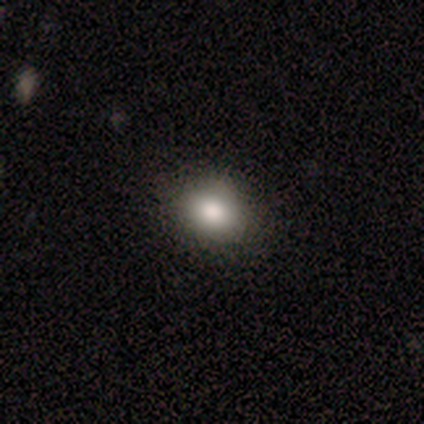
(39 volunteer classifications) smooth 90%, featured or disk 5%, star or artifact 5%. Down the decision tree: how rounded — round (57%); merging — none (89%).